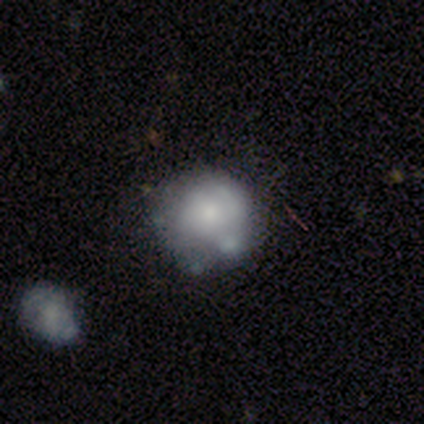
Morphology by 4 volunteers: Q: Smooth or featured?
A: smooth (50%); runner-up: featured or disk (25%)
Q: How rounded?
A: round (50%); tied with: in between (50%)
Q: Merging?
A: minor disturbance (67%); runner-up: none (33%)